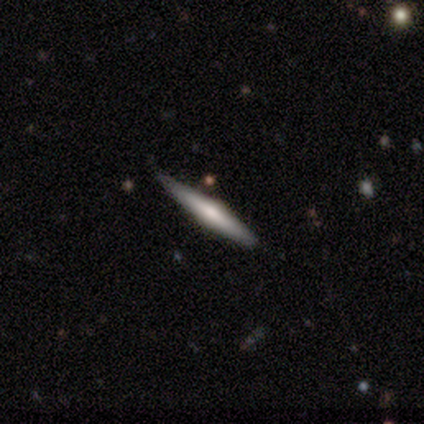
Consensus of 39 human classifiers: smooth_or_featured: featured or disk (p=0.62) [alt: smooth p=0.31]
disk_edge_on: yes (p=0.92) [alt: no p=0.08]
edge_on_bulge: rounded (p=0.82) [alt: boxy p=0.09]
merging: none (p=0.75) [alt: minor disturbance p=0.19]